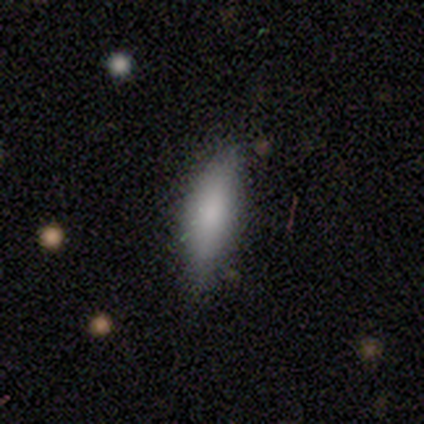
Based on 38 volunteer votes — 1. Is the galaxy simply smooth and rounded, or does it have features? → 89% smooth, 11% star or artifact, 0% featured or disk.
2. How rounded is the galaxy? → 50% in between (tied), 50% cigar-shaped (tied), 0% round.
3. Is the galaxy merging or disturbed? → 71% none, 24% minor disturbance, 3% major disturbance, 3% merger.